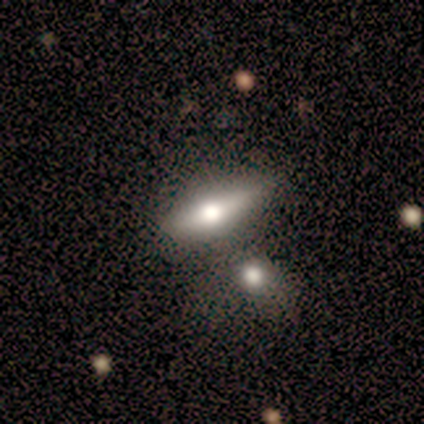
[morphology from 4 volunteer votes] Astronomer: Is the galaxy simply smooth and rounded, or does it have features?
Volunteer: smooth — 75%.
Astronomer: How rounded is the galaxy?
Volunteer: cigar-shaped — 67%.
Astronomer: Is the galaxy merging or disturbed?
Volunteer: merger — 67%.